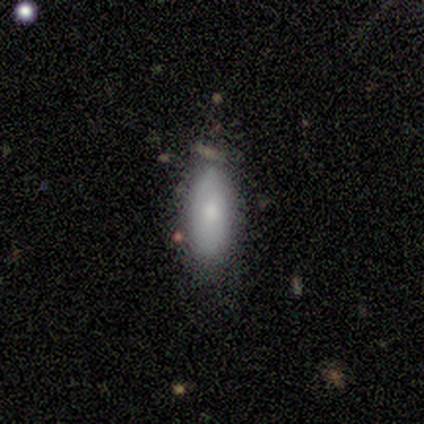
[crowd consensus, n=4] Smooth or featured?
  - smooth: 50% * (tied)
  - featured or disk: 50% * (tied)
  - star or artifact: 0%
How rounded?
  - in between: 50% * (tied)
  - cigar-shaped: 50% * (tied)
  - round: 0%
Merging?
  - none: 75% *
  - minor disturbance: 25%
  - major disturbance: 0%
  - merger: 0%